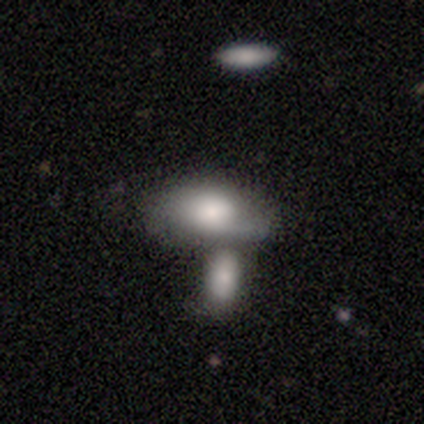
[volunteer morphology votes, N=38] Smooth or featured: smooth — 76% (featured or disk — 16%)
How rounded: in between — 100%
Merging: merger — 77%